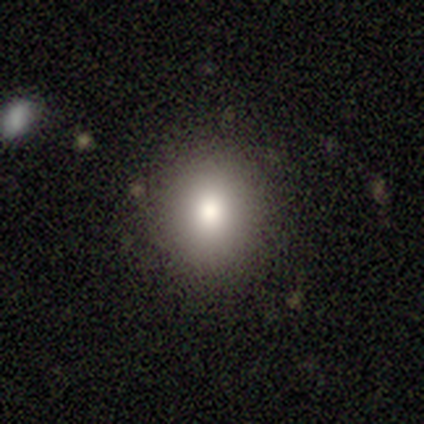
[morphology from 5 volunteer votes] smooth_or_featured: smooth (p=0.80) [alt: star or artifact p=0.20]
how_rounded: round (p=1.00)
merging: none (p=0.75) [alt: merger p=0.25]